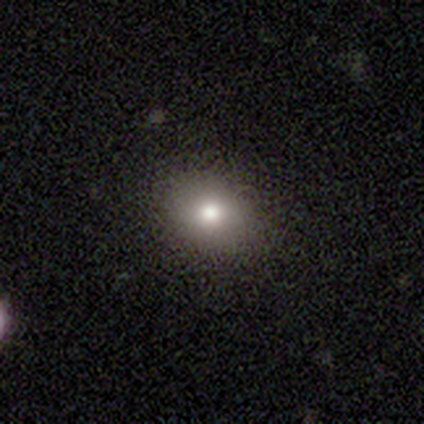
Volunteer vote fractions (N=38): This is likely a smooth galaxy (71%). How rounded: possibly round (52%). Merging: clearly none (88%).